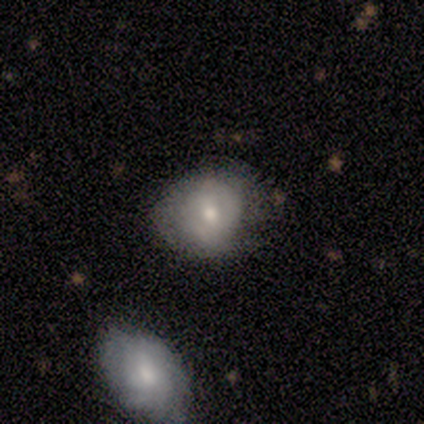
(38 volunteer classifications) This appears to be a smooth galaxy with no disk features (63%) that is round (71%). Merging: none (74%).